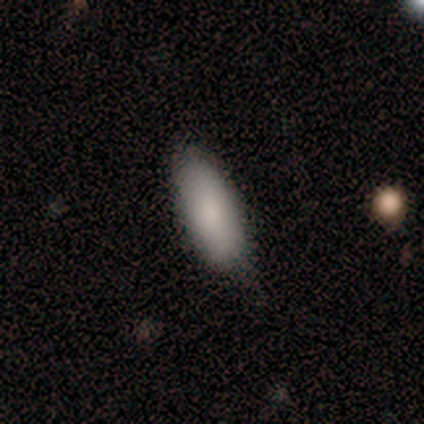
Smooth or featured?
  - smooth: 100% *
  - featured or disk: 0%
  - star or artifact: 0%
How rounded?
  - in between: 100% *
  - round: 0%
  - cigar-shaped: 0%
Merging?
  - minor disturbance: 80% *
  - none: 20%
  - major disturbance: 0%
  - merger: 0%